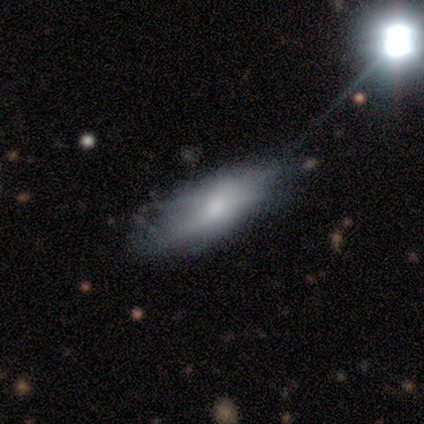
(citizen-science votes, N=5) Morphology: type=smooth (80%); roundness=in between (100%); merging=none (100%).